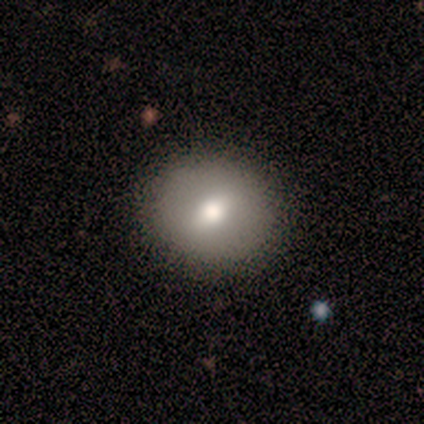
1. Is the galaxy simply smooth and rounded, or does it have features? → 75% smooth, 25% featured or disk, 0% star or artifact.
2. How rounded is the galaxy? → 100% round, 0% in between, 0% cigar-shaped.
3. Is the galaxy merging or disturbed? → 75% none, 25% minor disturbance, 0% major disturbance, 0% merger.